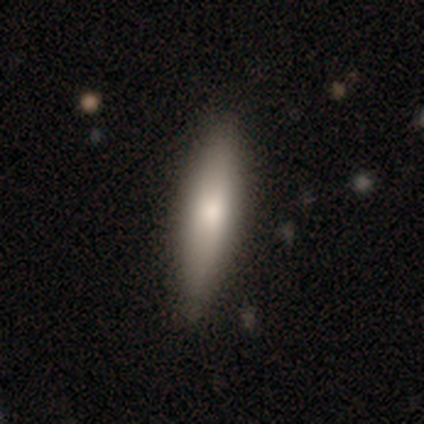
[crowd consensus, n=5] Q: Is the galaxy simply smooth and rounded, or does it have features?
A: smooth — 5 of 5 (100%).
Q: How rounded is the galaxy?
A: cigar-shaped — 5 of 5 (100%).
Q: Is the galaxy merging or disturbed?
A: none — 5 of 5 (100%).